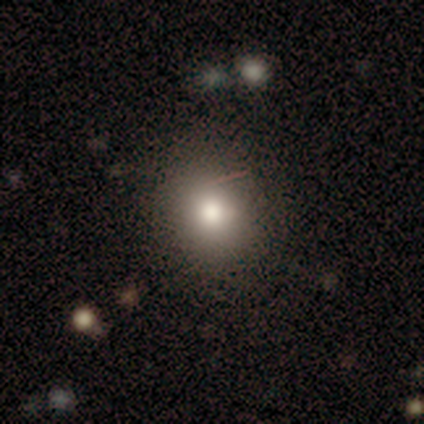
A smooth galaxy with no disk features (75%) that is round (100%). Merging: none (100%).